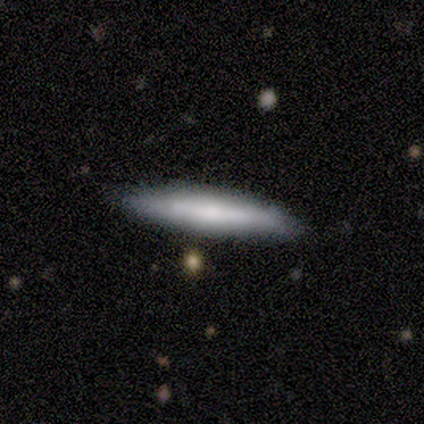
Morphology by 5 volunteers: type=smooth (80%); roundness=cigar-shaped (100%); merging=none (100%).